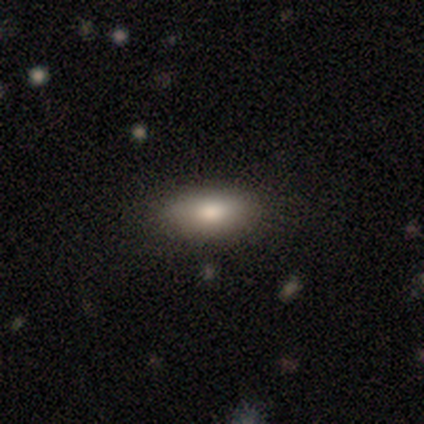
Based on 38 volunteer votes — Q: Smooth or featured?
A: smooth (79%); runner-up: featured or disk (18%)
Q: How rounded?
A: in between (83%); runner-up: cigar-shaped (13%)
Q: Merging?
A: none (84%); runner-up: minor disturbance (11%)